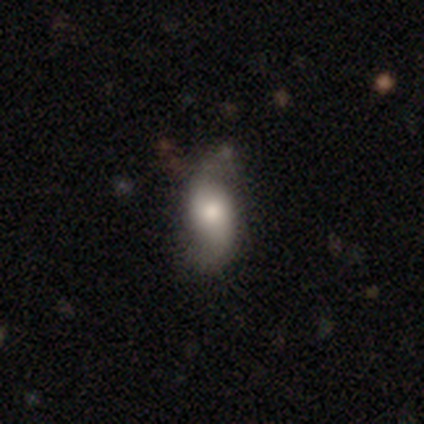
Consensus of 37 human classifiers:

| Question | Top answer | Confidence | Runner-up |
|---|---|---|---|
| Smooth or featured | featured or disk | 62% | smooth (32%) |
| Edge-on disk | no | 87% | yes (13%) |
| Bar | no | 70% | weak (25%) |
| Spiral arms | yes | 90% | no (10%) |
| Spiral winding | loose | 83% | medium (17%) |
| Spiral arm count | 2 | 83% | 1 (11%) |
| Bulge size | large | 45% | moderate (30%) |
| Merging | none | 77% | minor disturbance (17%) |